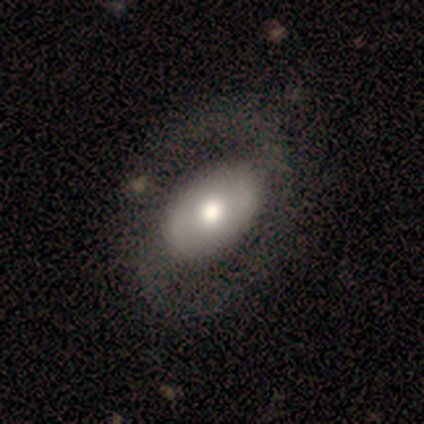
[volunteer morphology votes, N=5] Overall: smooth (60%; featured or disk 40%). How rounded: in between (67%; round 33%). Merging: none (80%).